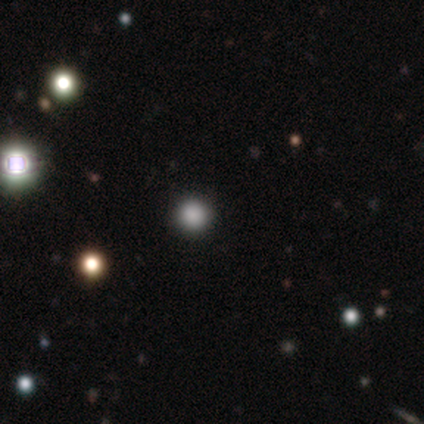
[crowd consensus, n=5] This appears to be a smooth galaxy with no disk features (60%) that is round (100%). Merging: none (100%).